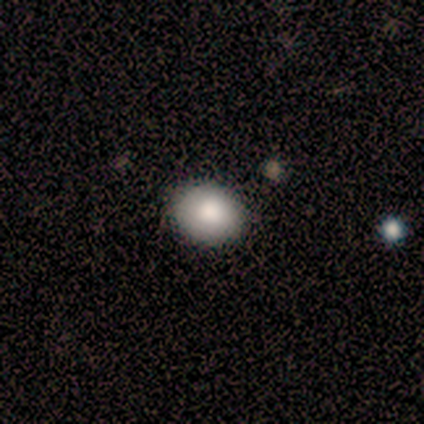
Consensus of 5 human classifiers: Smooth or featured: smooth — 80% (star or artifact — 20%)
How rounded: round — 75% (in between — 25%)
Merging: none — 100%